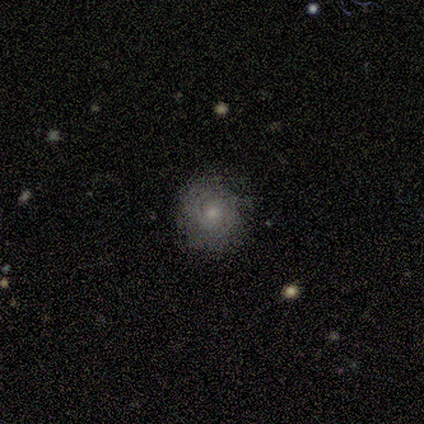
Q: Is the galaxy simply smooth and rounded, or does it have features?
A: smooth — 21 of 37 (57%).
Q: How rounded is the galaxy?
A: round — 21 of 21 (100%).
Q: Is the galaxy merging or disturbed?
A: none — 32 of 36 (89%).